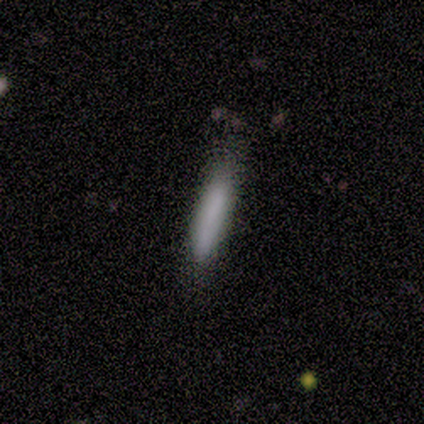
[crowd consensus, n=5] Q: Smooth or featured?
A: smooth (60%); runner-up: featured or disk (20%)
Q: How rounded?
A: cigar-shaped (67%); runner-up: in between (33%)
Q: Merging?
A: none (75%); runner-up: minor disturbance (25%)